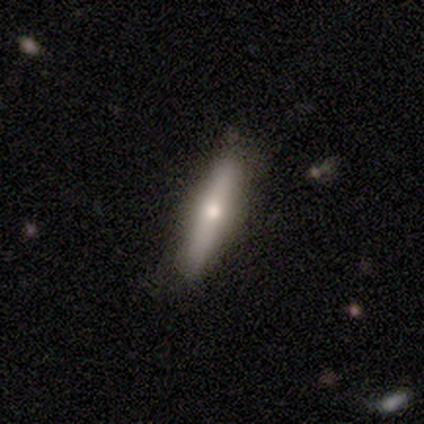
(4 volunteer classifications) A smooth galaxy with no disk features (75%) that is cigar-shaped (100%).

Vote fractions:
- Smooth or featured? smooth: 75% / featured or disk: 25% / star or artifact: 0%
- How rounded? cigar-shaped: 100% / round: 0% / in between: 0%
- Merging? none: 100% / minor disturbance: 0% / major disturbance: 0% / merger: 0%